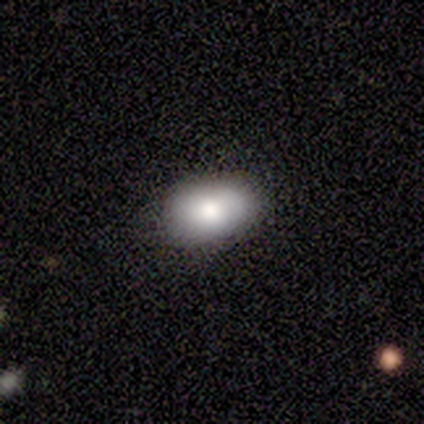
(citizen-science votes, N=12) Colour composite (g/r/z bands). It shows a smooth galaxy with no disk features (92%) that is in between round and cigar-shaped (91%). Merging: none (92%).